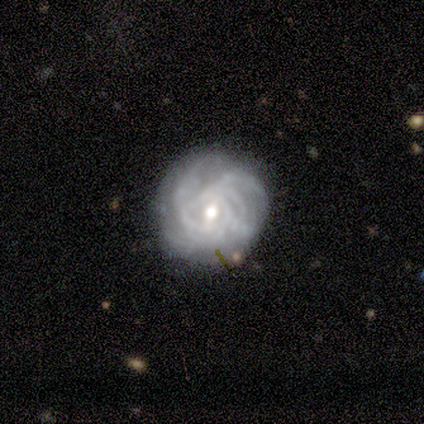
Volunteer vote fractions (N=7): Smooth or featured: featured or disk — 86% (smooth — 14%)
Edge-on disk: no — 100%
Bar: weak — 67% (strong — 17%)
Spiral arms: yes — 100%
Spiral winding: tight — 100%
Spiral arm count: more than 4 — 50% (3 — 33%)
Bulge size: moderate — 50% (tied with small — 50%)
Merging: none — 71% (minor disturbance — 29%)